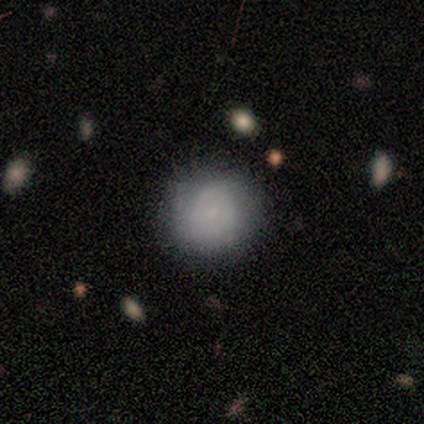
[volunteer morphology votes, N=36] A smooth galaxy with no disk features (61%) that is round (91%).

Vote fractions:
- Smooth or featured? smooth: 61% / featured or disk: 36% / star or artifact: 3%
- How rounded? round: 91% / in between: 9% / cigar-shaped: 0%
- Merging? none: 89% / minor disturbance: 9% / major disturbance: 3% / merger: 0%